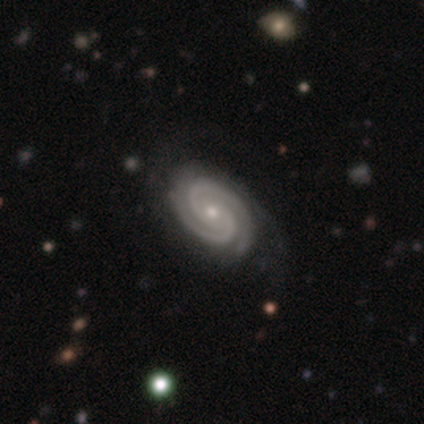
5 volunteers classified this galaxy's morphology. smooth_or_featured: featured or disk (p=1.00)
disk_edge_on: no (p=1.00)
bar: no (p=0.60) [alt: weak p=0.40]
has_spiral_arms: yes (p=1.00)
spiral_winding: tight (p=1.00)
spiral_arm_count: 2 (p=1.00)
bulge_size: small (p=1.00)
merging: none (p=1.00)